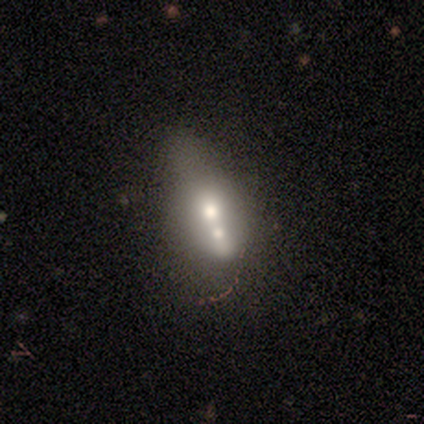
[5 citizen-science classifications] Smooth or featured? smooth (40%, tied with featured or disk)
How rounded? round (50%, tied with in between)
Merging? merger (75%)